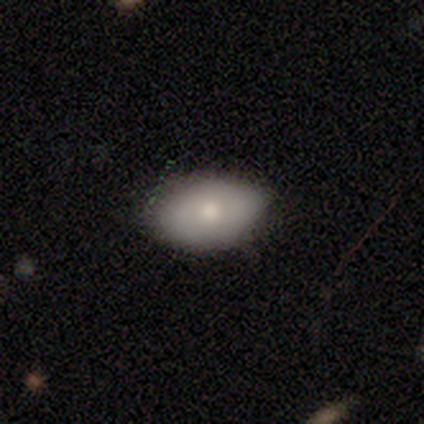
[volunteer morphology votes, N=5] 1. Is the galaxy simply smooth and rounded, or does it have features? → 80% smooth, 20% star or artifact, 0% featured or disk.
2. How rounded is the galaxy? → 100% in between, 0% round, 0% cigar-shaped.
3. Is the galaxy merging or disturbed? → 50% none (tied), 50% minor disturbance (tied), 0% major disturbance, 0% merger.